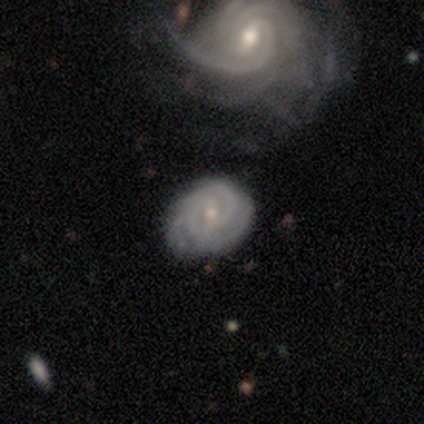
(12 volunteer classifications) Smooth or featured? 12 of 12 (100%) said featured or disk. Edge-on disk? 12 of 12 (100%) said no. Bar? 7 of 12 (58%) said weak. Spiral arms? 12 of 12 (100%) said yes. Spiral winding? 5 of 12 (42%, tied with medium) said tight. Spiral arm count? 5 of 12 (42%) said can't tell. Bulge size? 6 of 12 (50%, tied with small) said moderate. Merging? 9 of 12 (75%) said none.